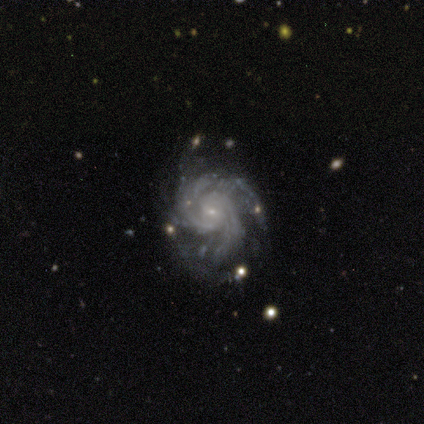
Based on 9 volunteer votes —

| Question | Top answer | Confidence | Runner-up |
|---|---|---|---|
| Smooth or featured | featured or disk | 100% | — |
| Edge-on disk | no | 100% | — |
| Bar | weak | 56% | no (44%) |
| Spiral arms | yes | 100% | — |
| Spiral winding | tight | 78% | medium (22%) |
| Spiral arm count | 3 | 44% | 4 (22%) |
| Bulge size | small | 89% | none (11%) |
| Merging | none | 56% | minor disturbance (33%) |